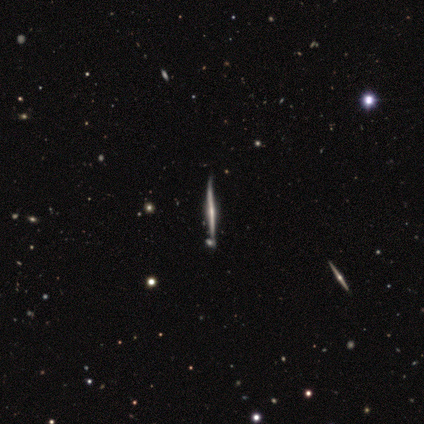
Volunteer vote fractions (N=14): Overall: featured or disk (86%). Edge-on disk: yes (100%). Edge-on bulge: none (50%; rounded 42%). Merging: none (57%; minor disturbance 29%).